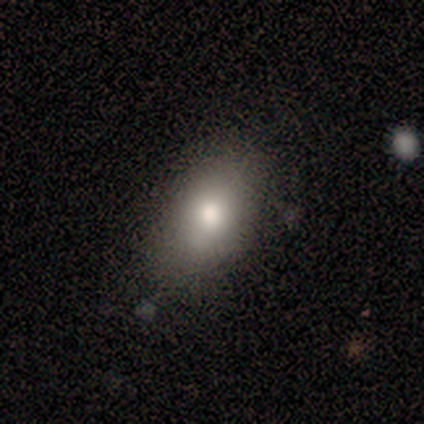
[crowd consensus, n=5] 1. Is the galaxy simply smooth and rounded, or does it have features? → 80% smooth, 20% featured or disk, 0% star or artifact.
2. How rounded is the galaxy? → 100% in between, 0% round, 0% cigar-shaped.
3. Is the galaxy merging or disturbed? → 80% none, 20% minor disturbance, 0% major disturbance, 0% merger.